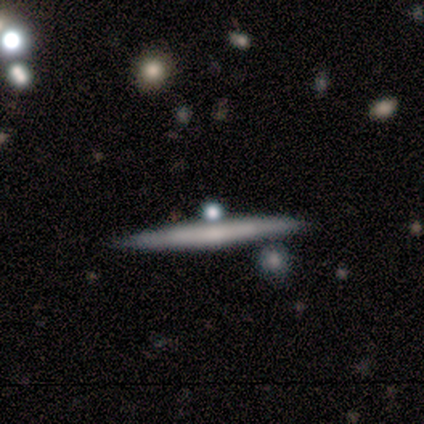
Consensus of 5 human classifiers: Smooth or featured? 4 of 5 (80%) said featured or disk. Edge-on disk? 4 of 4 (100%) said yes. Edge-on bulge? 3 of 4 (75%) said none. Merging? 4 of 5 (80%) said none.